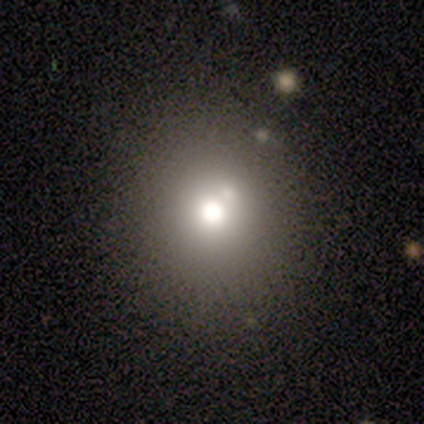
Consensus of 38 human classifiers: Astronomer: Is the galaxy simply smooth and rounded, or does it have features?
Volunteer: smooth — 63%.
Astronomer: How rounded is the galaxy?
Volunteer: round — 100%.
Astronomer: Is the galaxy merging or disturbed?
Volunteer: none — 60%.